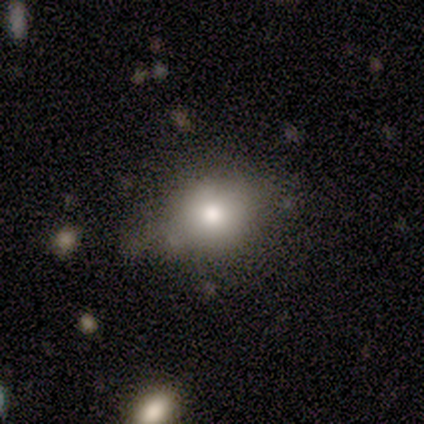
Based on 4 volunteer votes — smooth-or-featured: smooth: 100% | featured or disk: 0% | star or artifact: 0%
  how-rounded: round: 50% (tied) | in between: 50% (tied) | cigar-shaped: 0%
  merging: minor disturbance: 50% | none: 25% | merger: 25% | major disturbance: 0%